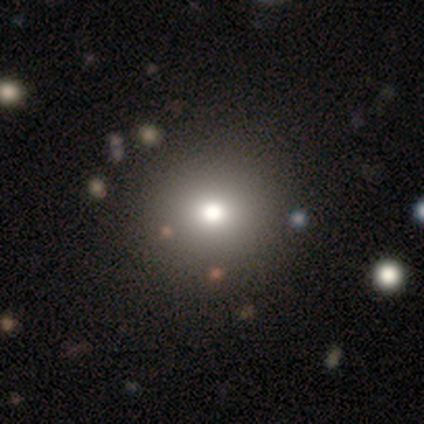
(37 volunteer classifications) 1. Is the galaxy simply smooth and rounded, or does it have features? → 68% smooth, 19% star or artifact, 14% featured or disk.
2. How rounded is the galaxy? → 84% round, 16% in between, 0% cigar-shaped.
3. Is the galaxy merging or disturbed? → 50% none, 10% minor disturbance, 10% merger, 3% major disturbance.